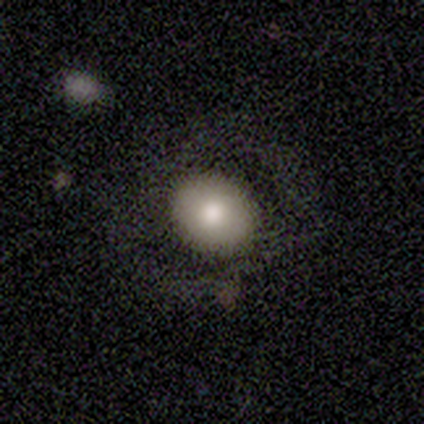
Morphology: type=smooth (50%); roundness=in between (100%); merging=none (67%).